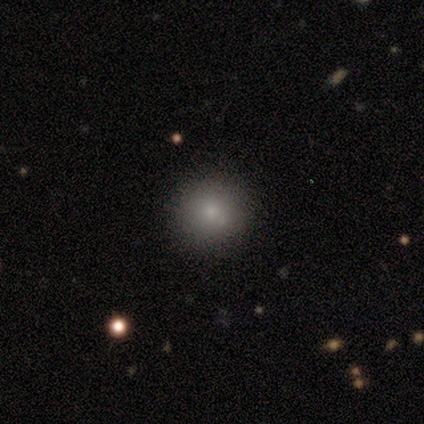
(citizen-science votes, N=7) This appears to be a smooth galaxy with no disk features (86%) that is round (100%). Merging: none (100%).